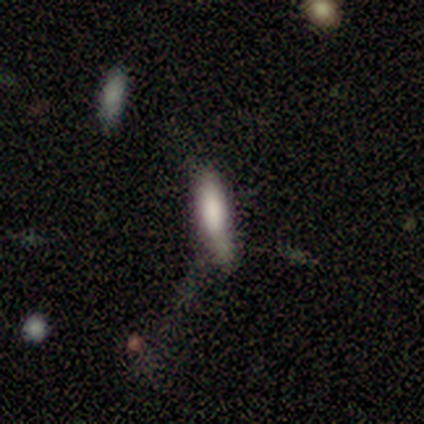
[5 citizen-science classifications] Smooth or featured? smooth (80%)
How rounded? cigar-shaped (75%)
Merging? none (60%)